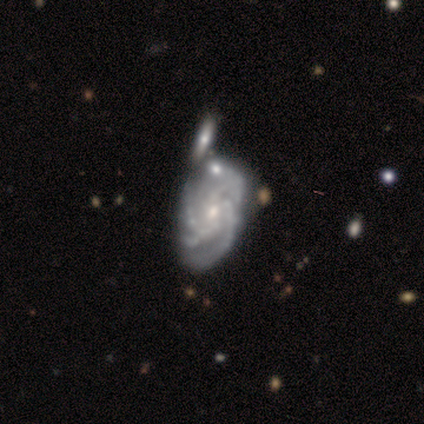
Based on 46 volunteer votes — Morphology: type=featured or disk (89%); edge-on=no (100%); bar=no (71%); spiral arms=yes (90%); winding=tight (65%); arm count=3 (43%); bulge=small (56%); merging=none (39%).